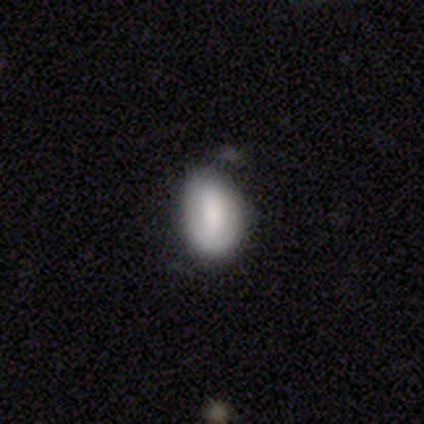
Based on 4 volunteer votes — A smooth galaxy with no disk features (75%) that is in between round and cigar-shaped (100%).

Vote fractions:
- Smooth or featured? smooth: 75% / featured or disk: 25% / star or artifact: 0%
- How rounded? in between: 100% / round: 0% / cigar-shaped: 0%
- Merging? none: 50% (tied) / minor disturbance: 50% (tied) / major disturbance: 0% / merger: 0%